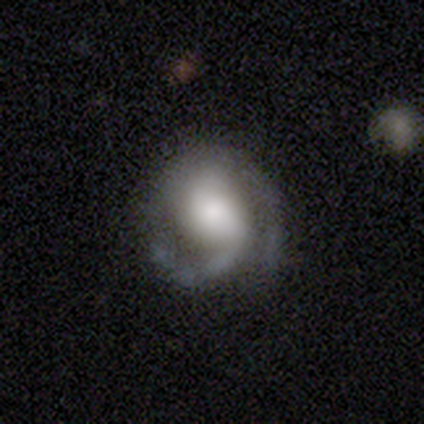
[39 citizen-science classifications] Volunteers were most divided on "spiral winding": medium: 47%, tight: 41%, loose: 12%. Remaining: edge-on disk — no (100%); spiral arms — yes (97%); smooth or featured — featured or disk (90%); spiral arm count — 2 (79%); merging — none (74%); bar — weak (46%); bulge size — large (46%).